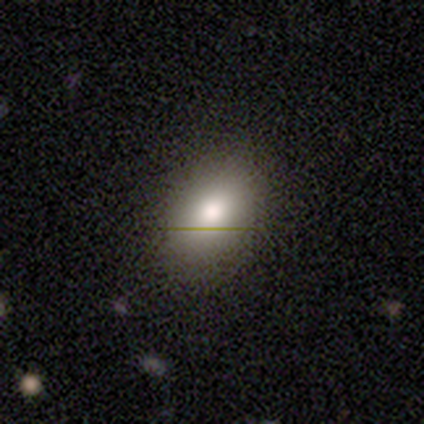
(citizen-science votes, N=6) Smooth or featured? 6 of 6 (100%) said smooth. How rounded? 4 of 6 (67%) said in between. Merging? 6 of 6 (100%) said none.